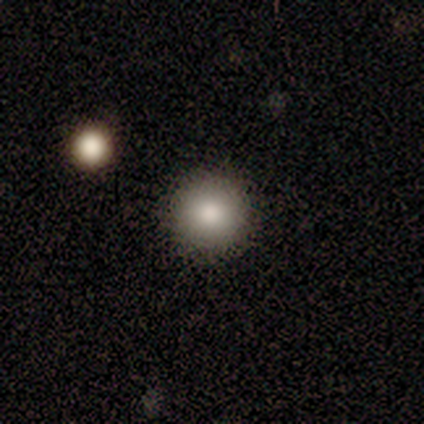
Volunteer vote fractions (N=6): Q: Smooth or featured?
A: smooth (100%)
Q: How rounded?
A: round (100%)
Q: Merging?
A: none (67%); runner-up: minor disturbance (17%)